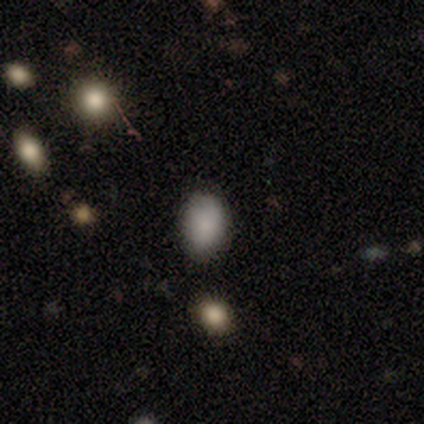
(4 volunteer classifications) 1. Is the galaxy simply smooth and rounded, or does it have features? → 100% smooth, 0% featured or disk, 0% star or artifact.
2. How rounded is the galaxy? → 75% in between, 25% round, 0% cigar-shaped.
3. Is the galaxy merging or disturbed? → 100% none, 0% minor disturbance, 0% major disturbance, 0% merger.